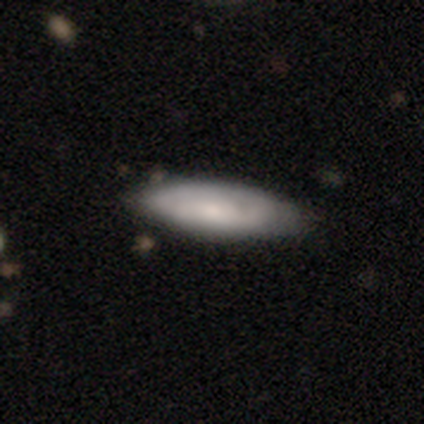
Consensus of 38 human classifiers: Smooth or featured? smooth (68%)
How rounded? in between (58%)
Merging? none (78%)